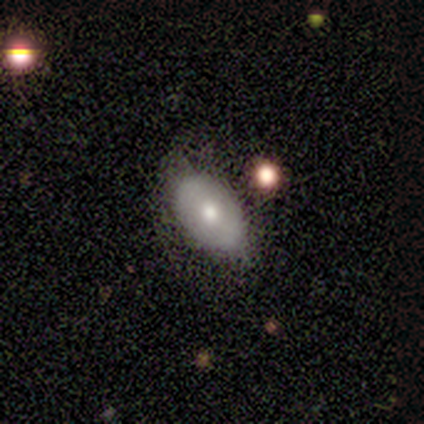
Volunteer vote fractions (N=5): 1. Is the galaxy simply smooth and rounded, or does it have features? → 60% smooth, 20% featured or disk, 20% star or artifact.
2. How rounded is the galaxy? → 100% in between, 0% round, 0% cigar-shaped.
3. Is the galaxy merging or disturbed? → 75% none, 25% minor disturbance, 0% major disturbance, 0% merger.